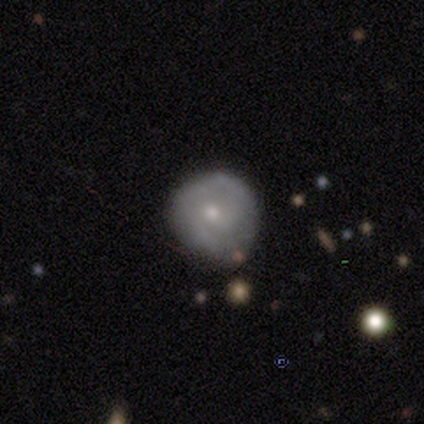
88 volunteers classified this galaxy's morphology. Smooth or featured: smooth — 57% (featured or disk — 40%)
How rounded: round — 98% (cigar-shaped — 2%)
Merging: none — 51% (minor disturbance — 39%)